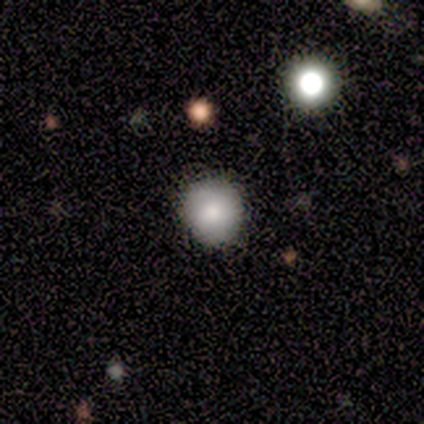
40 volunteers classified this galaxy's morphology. Smooth or featured? 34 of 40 (85%) said smooth. How rounded? 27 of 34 (79%) said round. Merging? 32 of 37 (86%) said none.